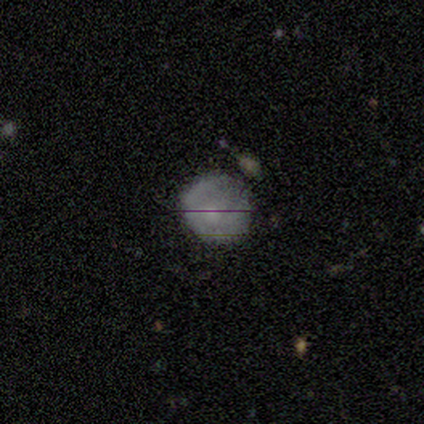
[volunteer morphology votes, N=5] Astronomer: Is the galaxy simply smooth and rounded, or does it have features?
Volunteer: smooth — 80%.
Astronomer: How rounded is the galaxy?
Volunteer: round — 100%.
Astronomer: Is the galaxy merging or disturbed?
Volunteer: none — 60% (runner-up: minor disturbance, 40%).